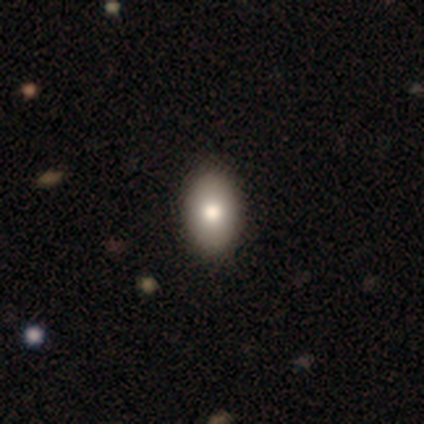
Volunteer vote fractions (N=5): A smooth galaxy with no disk features (80%) that is in between round and cigar-shaped (100%). Merging: none (100%).